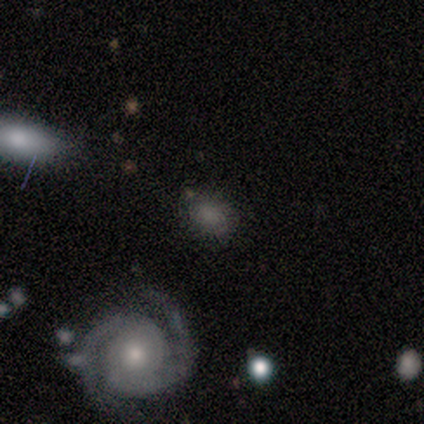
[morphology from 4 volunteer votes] Overall: smooth (50%, tied with featured or disk). How rounded: round (50%, tied with in between). Merging: none (50%, tied with minor disturbance).